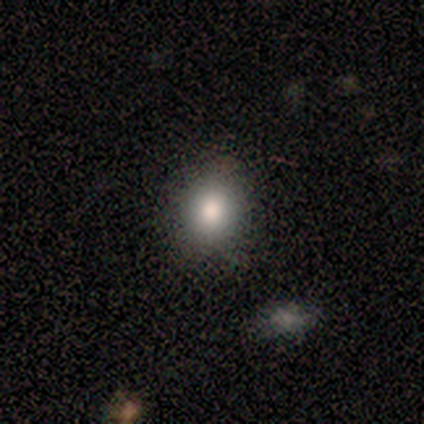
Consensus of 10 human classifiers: Smooth or featured?
  - smooth: 90% *
  - star or artifact: 10%
  - featured or disk: 0%
How rounded?
  - round: 67% *
  - in between: 33%
  - cigar-shaped: 0%
Merging?
  - none: 100% *
  - minor disturbance: 0%
  - major disturbance: 0%
  - merger: 0%